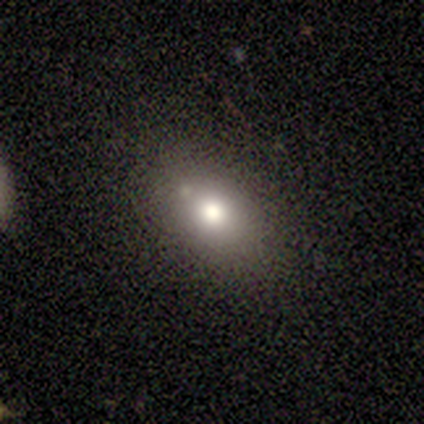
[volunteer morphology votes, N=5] Smooth or featured?
  - smooth: 60% *
  - featured or disk: 20%
  - star or artifact: 20%
How rounded?
  - in between: 100% *
  - round: 0%
  - cigar-shaped: 0%
Merging?
  - none: 100% *
  - minor disturbance: 0%
  - major disturbance: 0%
  - merger: 0%